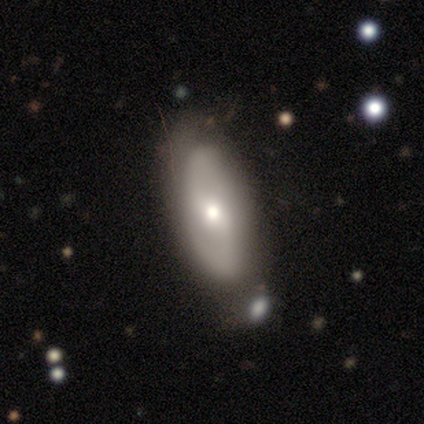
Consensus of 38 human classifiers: smooth-or-featured: featured or disk: 53% | smooth: 45% | star or artifact: 3%
  disk-edge-on: no: 90% | yes: 10%
    bar: weak: 61% | no: 28% | strong: 11%
    has-spiral-arms: yes: 72% | no: 28%
      spiral-winding: tight: 38% | medium: 31% | loose: 31%
      spiral-arm-count: 2: 92% | can't tell: 8% | 1: 0% | 3: 0% | 4: 0% | more than 4: 0%
    bulge-size: moderate: 56% | small: 39% | dominant: 6% | large: 0% | none: 0%
  merging: none: 49% | minor disturbance: 32% | merger: 14% | major disturbance: 5%